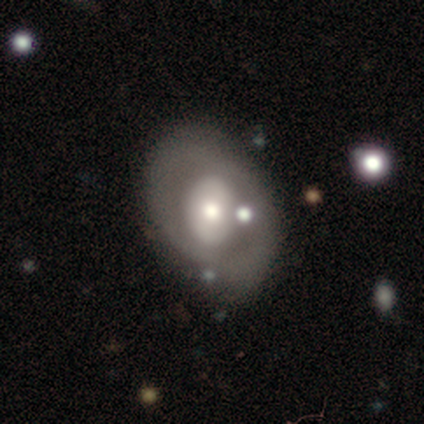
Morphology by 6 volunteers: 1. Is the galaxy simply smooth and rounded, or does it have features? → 50% featured or disk, 33% star or artifact, 17% smooth.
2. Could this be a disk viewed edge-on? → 67% no, 33% yes.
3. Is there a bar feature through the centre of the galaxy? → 100% no, 0% strong, 0% weak.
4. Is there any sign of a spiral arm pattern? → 100% no, 0% yes.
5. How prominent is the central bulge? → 100% moderate, 0% dominant, 0% large, 0% small, 0% none.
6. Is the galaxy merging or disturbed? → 50% none, 25% minor disturbance, 25% merger, 0% major disturbance.